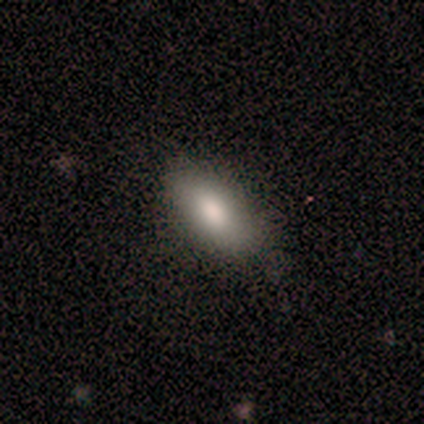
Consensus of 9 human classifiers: Overall: smooth (67%; featured or disk 33%). How rounded: in between (83%). Merging: none (67%).